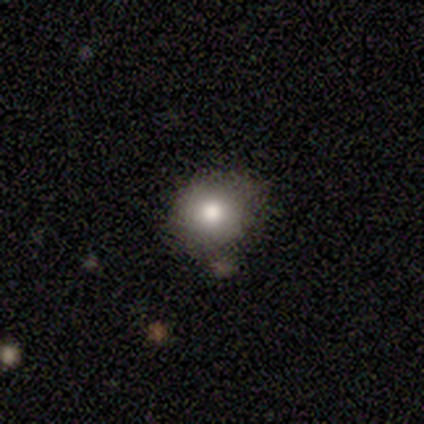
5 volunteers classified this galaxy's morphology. Smooth or featured? 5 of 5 (100%) said smooth. How rounded? 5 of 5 (100%) said round. Merging? 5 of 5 (100%) said none.